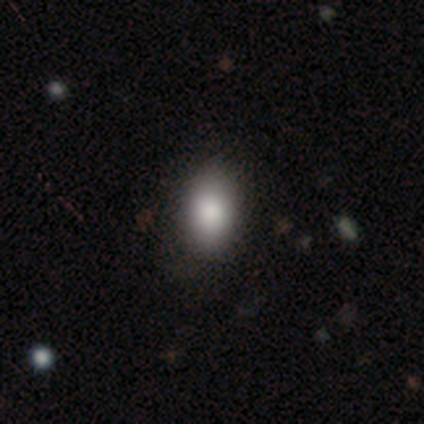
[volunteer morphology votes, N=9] Smooth or featured? 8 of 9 (89%) said smooth. How rounded? 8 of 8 (100%) said in between. Merging? 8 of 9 (89%) said none.